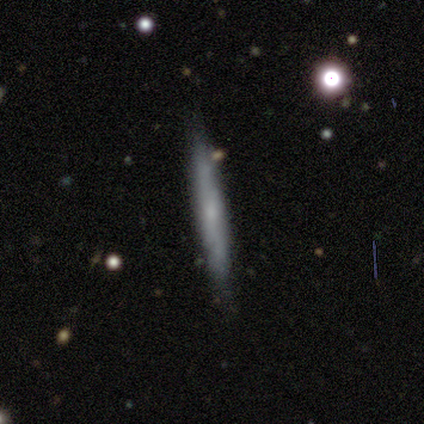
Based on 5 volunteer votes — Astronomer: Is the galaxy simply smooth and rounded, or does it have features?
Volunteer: smooth — 60%.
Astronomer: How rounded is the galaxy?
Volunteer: cigar-shaped — 100%.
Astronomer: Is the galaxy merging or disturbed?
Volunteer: minor disturbance — 75%.